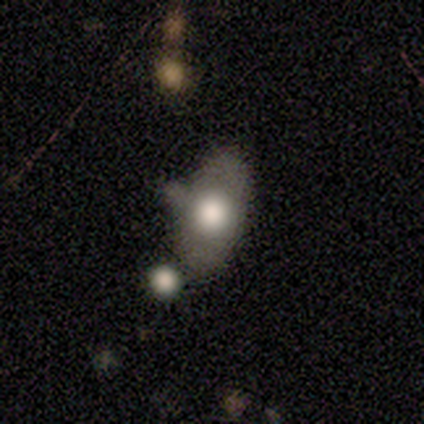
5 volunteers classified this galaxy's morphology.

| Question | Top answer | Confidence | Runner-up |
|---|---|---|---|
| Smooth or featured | smooth | 80% | featured or disk (20%) |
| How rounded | in between | 75% | round (25%) |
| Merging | none | 60% | minor disturbance (20%) |